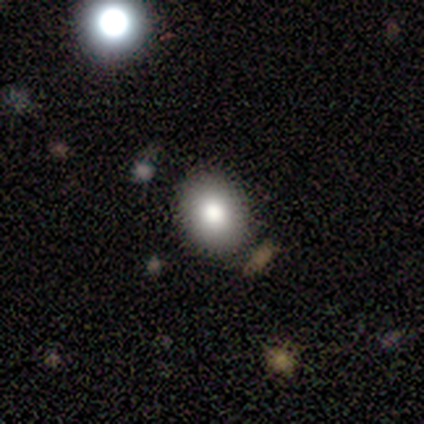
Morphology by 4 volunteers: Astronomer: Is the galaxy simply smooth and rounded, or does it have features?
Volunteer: smooth — 50%, tied with star or artifact at 50%.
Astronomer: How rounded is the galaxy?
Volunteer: round — 50%, tied with in between at 50%.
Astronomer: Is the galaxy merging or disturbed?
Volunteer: none — 100%.